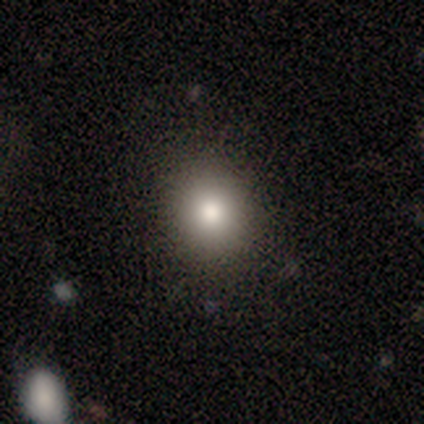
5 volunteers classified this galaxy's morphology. This is likely a smooth galaxy (60%). How rounded: likely round (67%). Merging: clearly none (100%).